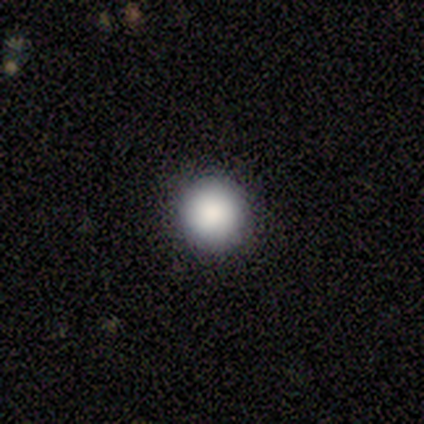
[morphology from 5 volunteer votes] Volunteers were most divided on "smooth or featured": smooth: 80%, featured or disk: 20%, star or artifact: 0%. More confident: how rounded — round (100%); merging — none (100%).